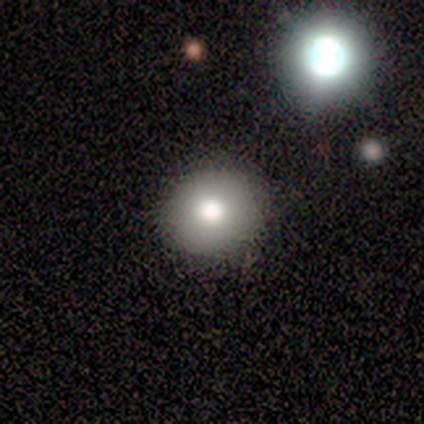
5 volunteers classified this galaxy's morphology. Q: Smooth or featured?
A: smooth (100%)
Q: How rounded?
A: round (100%)
Q: Merging?
A: none (60%); runner-up: minor disturbance (40%)